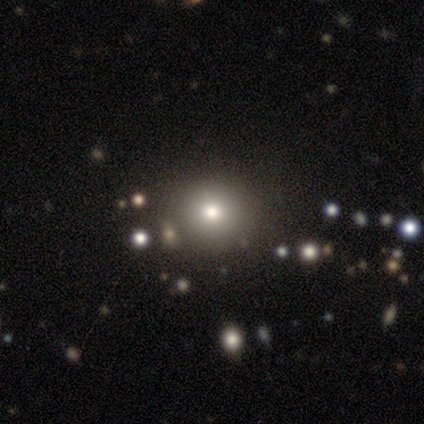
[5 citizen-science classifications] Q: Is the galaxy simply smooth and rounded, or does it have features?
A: smooth — 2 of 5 (40%, tied with star or artifact).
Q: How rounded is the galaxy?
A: round — 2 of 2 (100%).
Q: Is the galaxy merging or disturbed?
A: none — 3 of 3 (100%).